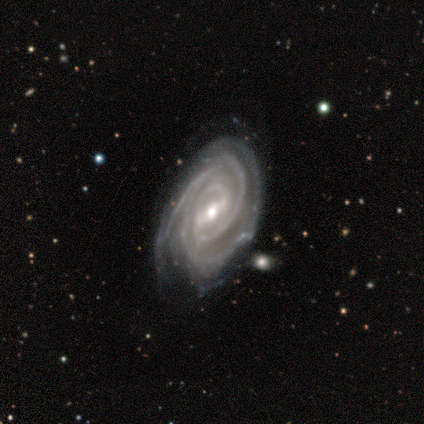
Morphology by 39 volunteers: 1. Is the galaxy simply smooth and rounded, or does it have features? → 95% featured or disk, 5% smooth, 0% star or artifact.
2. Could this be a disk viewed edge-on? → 97% no, 3% yes.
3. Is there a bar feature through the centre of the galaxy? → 50% strong, 42% weak, 8% no.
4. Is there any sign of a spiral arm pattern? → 100% yes, 0% no.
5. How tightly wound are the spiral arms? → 81% tight, 17% medium, 3% loose.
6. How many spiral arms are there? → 39% 2, 36% 3, 8% 4, 8% can't tell, 6% 1, 3% more than 4.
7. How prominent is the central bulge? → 67% moderate, 28% small, 3% large, 3% none, 0% dominant.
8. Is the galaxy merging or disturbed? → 62% none, 31% minor disturbance, 5% major disturbance, 3% merger.